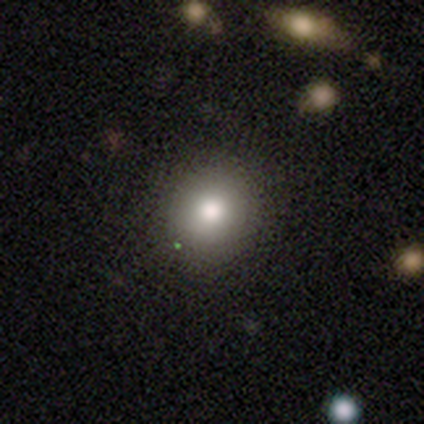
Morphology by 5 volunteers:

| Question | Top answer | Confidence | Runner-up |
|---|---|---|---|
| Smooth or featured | smooth | 80% | star or artifact (20%) |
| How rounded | round | 100% | — |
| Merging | none | 75% | minor disturbance (25%) |